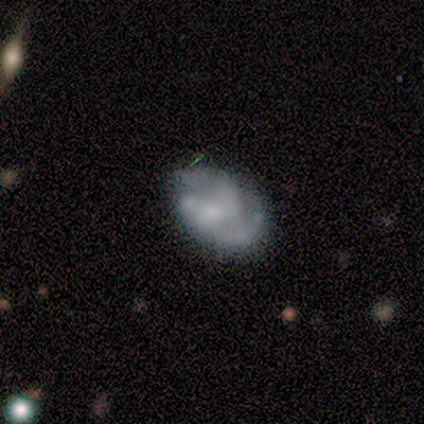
Smooth or featured?
  - featured or disk: 71% *
  - smooth: 24%
  - star or artifact: 5%
Edge-on disk?
  - no: 97% *
  - yes: 3%
Bar?
  - no: 61% *
  - weak: 33%
  - strong: 6%
Spiral arms?
  - yes: 71% *
  - no: 29%
Spiral winding?
  - medium: 45% *
  - tight: 35%
  - loose: 20%
Spiral arm count?
  - 2: 67% *
  - can't tell: 18%
  - 1: 8%
  - 3: 8%
  - 4: 0%
  - more than 4: 0%
Bulge size?
  - small: 46% *
  - none: 32%
  - moderate: 22%
  - dominant: 0%
  - large: 0%
Merging?
  - none: 52% *
  - minor disturbance: 29%
  - major disturbance: 16%
  - merger: 3%